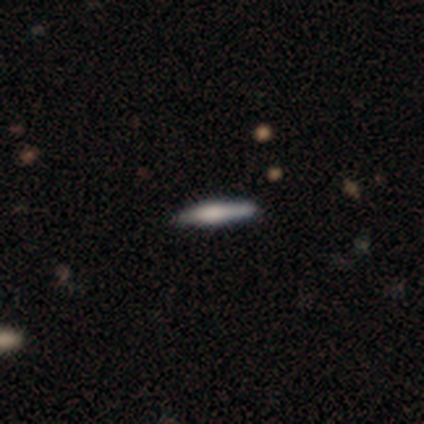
Volunteers were most divided on "smooth or featured": featured or disk: 60%, smooth: 40%, star or artifact: 0%. More confident: edge-on disk — yes (100%); edge-on bulge — rounded (100%); merging — none (60%).